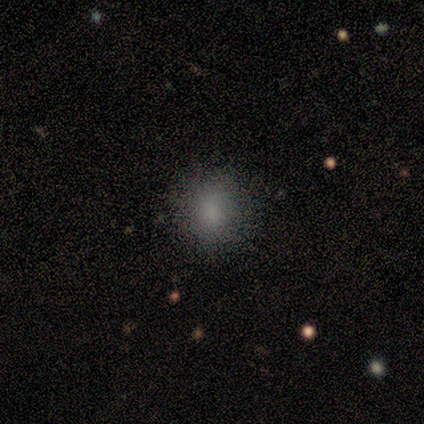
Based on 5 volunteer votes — Smooth or featured?
  - smooth: 60% *
  - star or artifact: 40%
  - featured or disk: 0%
How rounded?
  - round: 100% *
  - in between: 0%
  - cigar-shaped: 0%
Merging?
  - none: 67% *
  - minor disturbance: 33%
  - major disturbance: 0%
  - merger: 0%